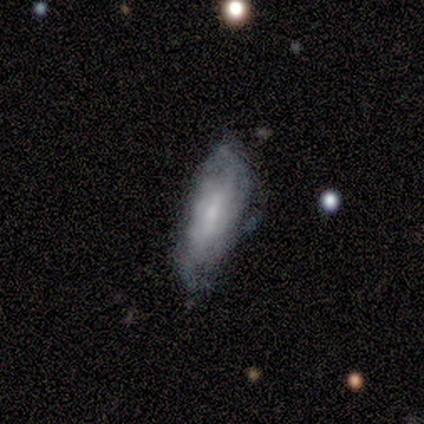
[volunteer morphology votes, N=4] Smooth or featured: featured or disk — 100%
Edge-on disk: no — 100%
Bar: weak — 50% (tied with no — 50%)
Spiral arms: yes — 75% (no — 25%)
Spiral winding: medium — 67% (loose — 33%)
Spiral arm count: 4 — 67% (1 — 33%)
Bulge size: small — 75% (moderate — 25%)
Merging: minor disturbance — 75% (none — 25%)